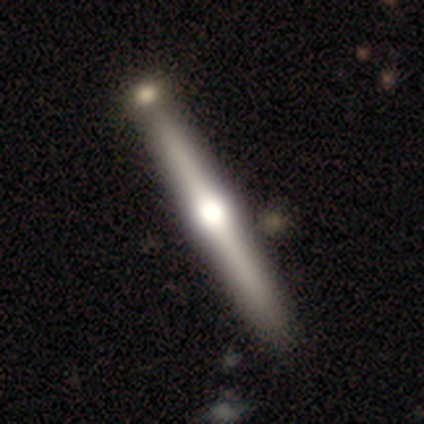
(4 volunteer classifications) smooth-or-featured: featured or disk: 75% | star or artifact: 25% | smooth: 0%
  disk-edge-on: yes: 100% | no: 0%
    edge-on-bulge: rounded: 100% | boxy: 0% | none: 0%
  merging: none: 67% | merger: 33% | minor disturbance: 0% | major disturbance: 0%